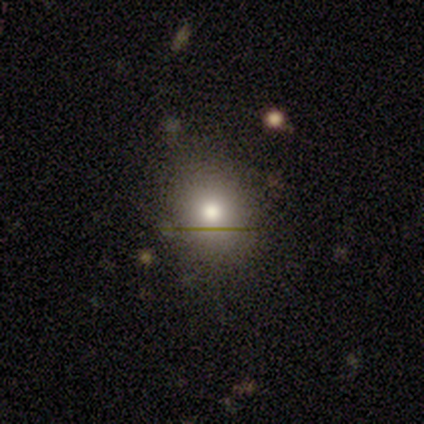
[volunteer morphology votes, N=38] Q: Smooth or featured?
A: smooth (79%); runner-up: star or artifact (13%)
Q: How rounded?
A: round (77%); runner-up: in between (23%)
Q: Merging?
A: none (79%); runner-up: minor disturbance (18%)